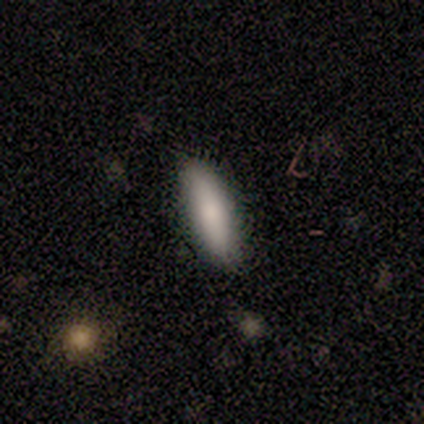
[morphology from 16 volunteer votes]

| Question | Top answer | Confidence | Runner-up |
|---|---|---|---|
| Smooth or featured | smooth | 100% | — |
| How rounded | cigar-shaped | 62% | in between (38%) |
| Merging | none | 75% | minor disturbance (19%) |